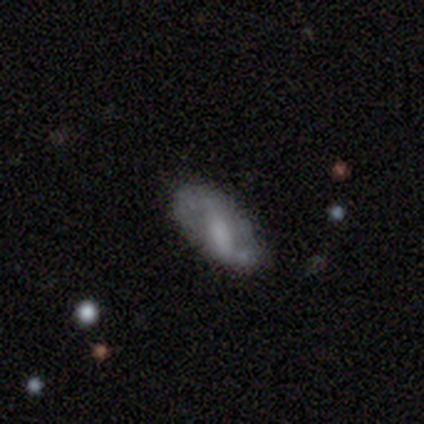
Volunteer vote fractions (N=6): smooth-or-featured: featured or disk: 83% | smooth: 17% | star or artifact: 0%
  disk-edge-on: no: 80% | yes: 20%
    bar: weak: 50% | strong: 25% | no: 25%
    has-spiral-arms: yes: 100% | no: 0%
      spiral-winding: loose: 75% | medium: 25% | tight: 0%
      spiral-arm-count: 2: 100% | 1: 0% | 3: 0% | 4: 0% | more than 4: 0% | can't tell: 0%
    bulge-size: moderate: 50% | large: 25% | small: 25% | dominant: 0% | none: 0%
  merging: none: 67% | minor disturbance: 17% | merger: 17% | major disturbance: 0%